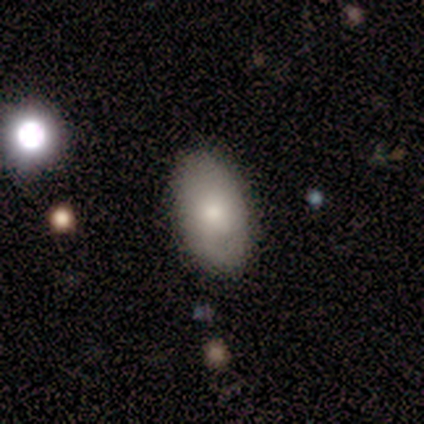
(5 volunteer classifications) Smooth or featured? smooth (60%)
How rounded? in between (100%)
Merging? none (100%)